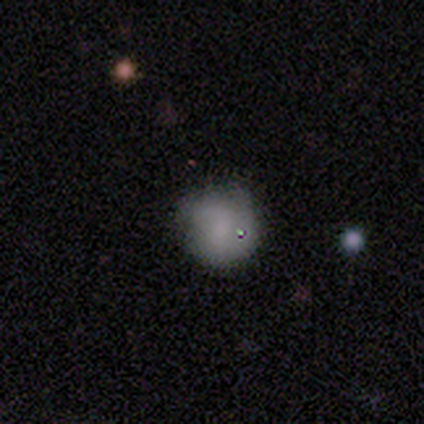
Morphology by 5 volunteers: smooth-or-featured: smooth: 40% (tied) | featured or disk: 40% (tied) | star or artifact: 20%
  how-rounded: round: 100% | in between: 0% | cigar-shaped: 0%
  merging: none: 50% | minor disturbance: 25% | major disturbance: 25% | merger: 0%